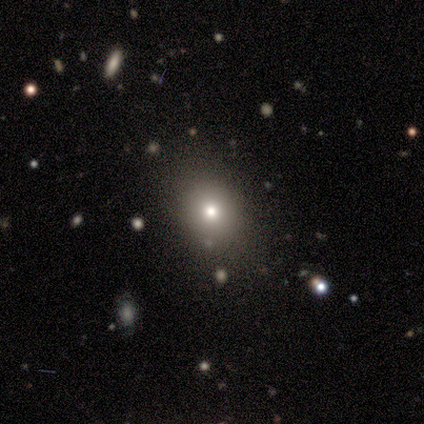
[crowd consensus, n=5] This appears to be a smooth galaxy with no disk features (80%) that is round (100%). Merging: none (100%).